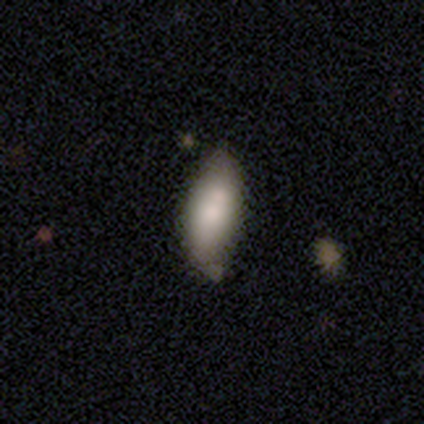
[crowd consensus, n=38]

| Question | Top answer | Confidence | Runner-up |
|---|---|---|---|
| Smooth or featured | smooth | 66% | featured or disk (29%) |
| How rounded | in between | 72% | cigar-shaped (24%) |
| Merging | none | 58% | merger (11%) |